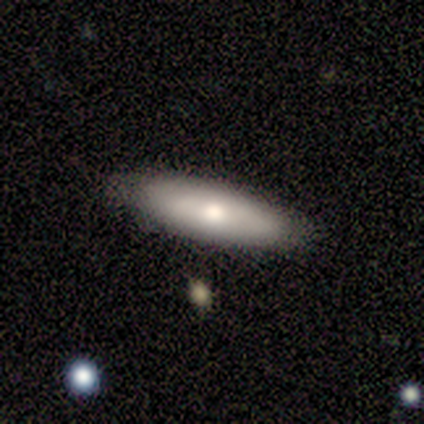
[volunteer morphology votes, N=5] Smooth or featured? smooth (60%)
How rounded? cigar-shaped (67%)
Merging? none (100%)